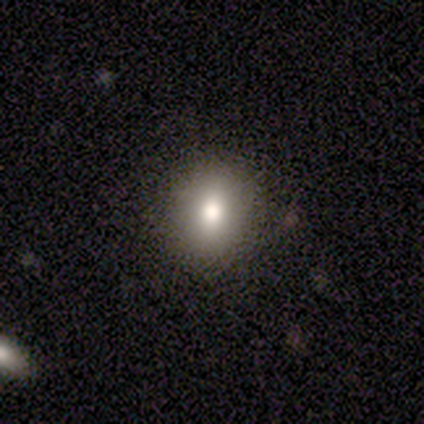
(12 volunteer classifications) Morphology: type=smooth (75%); roundness=round (78%); merging=none (91%).